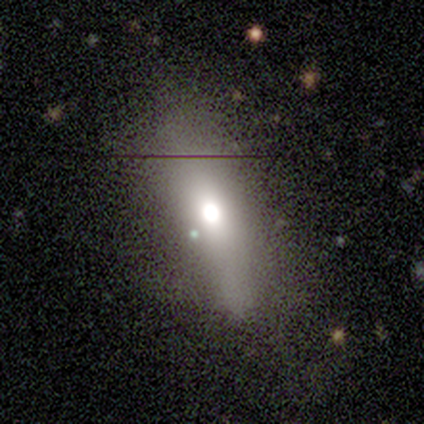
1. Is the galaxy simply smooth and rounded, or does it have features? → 54% smooth, 31% featured or disk, 15% star or artifact.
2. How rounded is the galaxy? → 71% cigar-shaped, 29% in between, 0% round.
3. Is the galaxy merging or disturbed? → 70% none, 18% minor disturbance, 12% major disturbance, 0% merger.